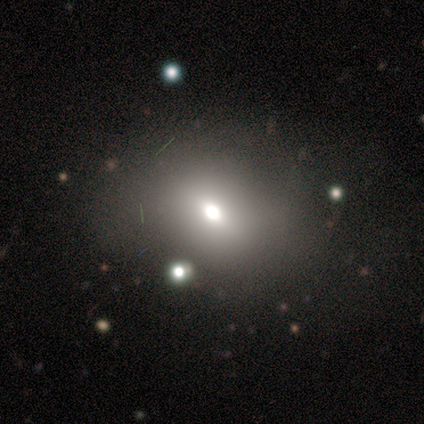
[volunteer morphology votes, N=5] star or artifact 60%, smooth 40%, featured or disk 0%.